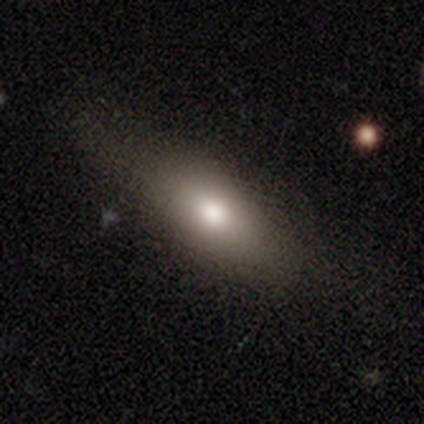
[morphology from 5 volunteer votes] Smooth or featured? 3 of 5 (60%) said smooth. How rounded? 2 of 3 (67%) said cigar-shaped. Merging? 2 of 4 (50%) said minor disturbance.